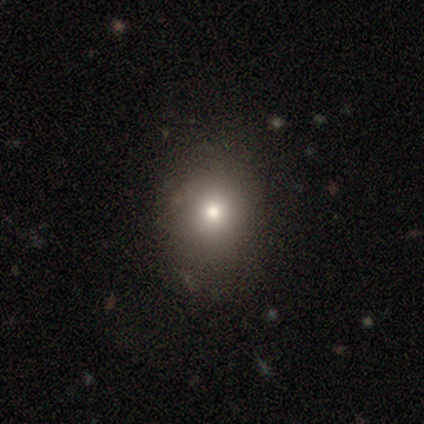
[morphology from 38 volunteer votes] A smooth galaxy with no disk features (74%) that is in between round and cigar-shaped (57%). Merging: none (83%).